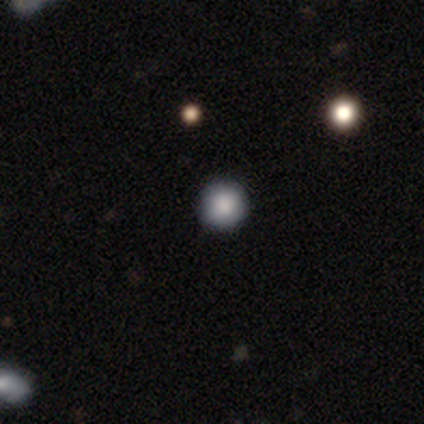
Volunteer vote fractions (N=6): Smooth or featured?
  - smooth: 100% *
  - featured or disk: 0%
  - star or artifact: 0%
How rounded?
  - round: 100% *
  - in between: 0%
  - cigar-shaped: 0%
Merging?
  - none: 67% *
  - minor disturbance: 33%
  - major disturbance: 0%
  - merger: 0%